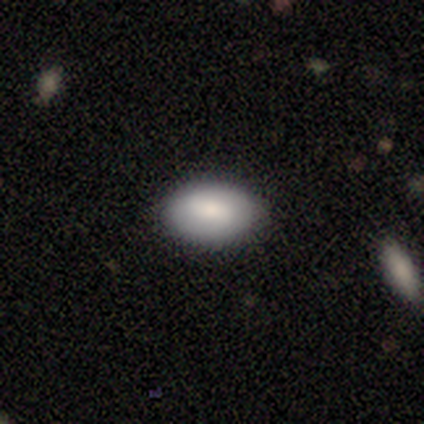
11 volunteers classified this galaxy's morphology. A smooth galaxy with no disk features (73%) that is in between round and cigar-shaped (100%).

Vote fractions:
- Smooth or featured? smooth: 73% / featured or disk: 27% / star or artifact: 0%
- How rounded? in between: 100% / round: 0% / cigar-shaped: 0%
- Merging? none: 82% / minor disturbance: 18% / major disturbance: 0% / merger: 0%